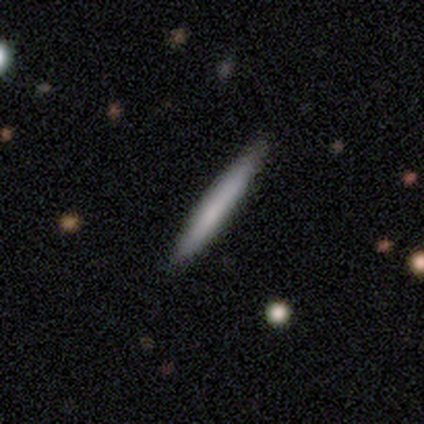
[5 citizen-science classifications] Q: Smooth or featured?
A: smooth (60%); runner-up: featured or disk (40%)
Q: How rounded?
A: cigar-shaped (100%)
Q: Merging?
A: none (80%); runner-up: minor disturbance (20%)